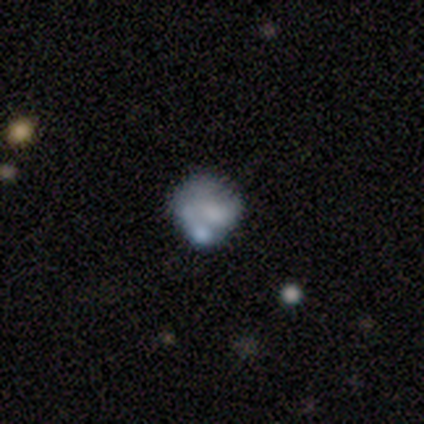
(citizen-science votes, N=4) This is possibly a smooth galaxy (50%). How rounded: possibly round (50%, tied with in between). Merging: likely none (67%).